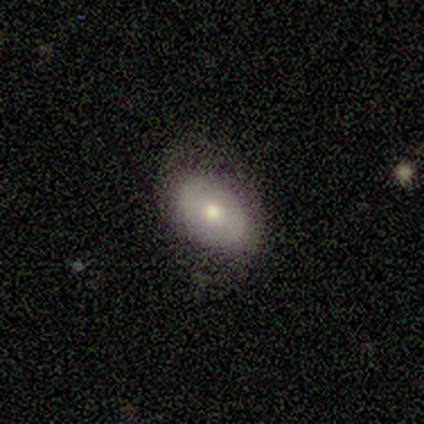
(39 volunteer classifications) Q: Smooth or featured?
A: smooth (59%); runner-up: featured or disk (36%)
Q: How rounded?
A: in between (91%); runner-up: round (9%)
Q: Merging?
A: none (84%); runner-up: minor disturbance (14%)